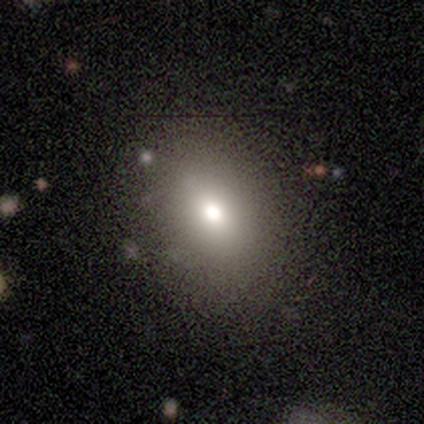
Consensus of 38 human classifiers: A smooth galaxy with no disk features (76%) that is in between round and cigar-shaped (76%).

Vote fractions:
- Smooth or featured? smooth: 76% / star or artifact: 16% / featured or disk: 8%
- How rounded? in between: 76% / round: 24% / cigar-shaped: 0%
- Merging? none: 97% / minor disturbance: 3% / major disturbance: 0% / merger: 0%